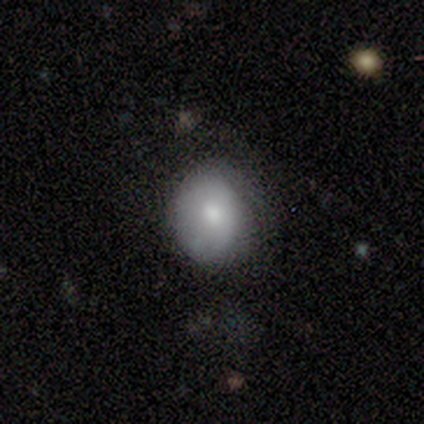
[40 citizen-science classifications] Smooth or featured? 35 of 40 (88%) said smooth. How rounded? 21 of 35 (60%) said round. Merging? 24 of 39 (62%) said none.